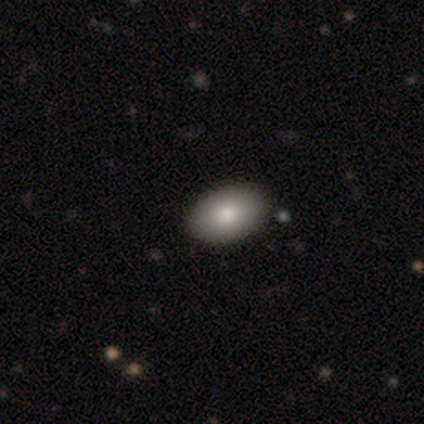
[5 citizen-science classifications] smooth-or-featured: smooth: 60% | featured or disk: 20% | star or artifact: 20%
  how-rounded: in between: 100% | round: 0% | cigar-shaped: 0%
  merging: none: 100% | minor disturbance: 0% | major disturbance: 0% | merger: 0%